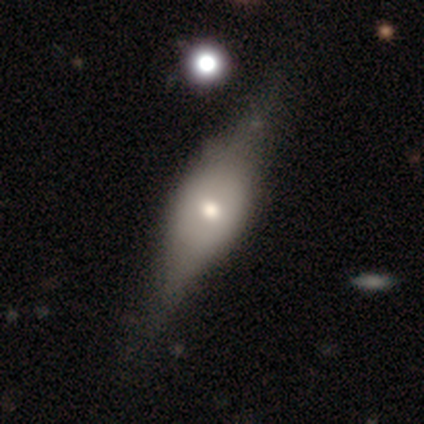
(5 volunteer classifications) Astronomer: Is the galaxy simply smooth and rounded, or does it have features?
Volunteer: featured or disk — 60%.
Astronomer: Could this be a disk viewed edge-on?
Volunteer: no — 100%.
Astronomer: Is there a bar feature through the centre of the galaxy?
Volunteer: no — 67%.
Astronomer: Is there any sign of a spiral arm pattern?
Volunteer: no — 100%.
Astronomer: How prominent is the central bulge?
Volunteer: moderate — 67%.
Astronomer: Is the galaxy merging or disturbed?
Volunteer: none — 50%, tied with major disturbance at 50%.